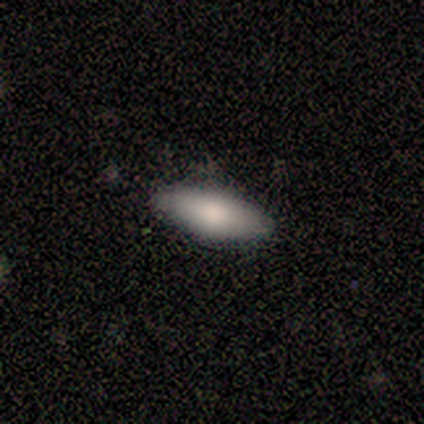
Smooth or featured? 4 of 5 (80%) said smooth. How rounded? 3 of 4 (75%) said in between. Merging? 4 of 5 (80%) said none.